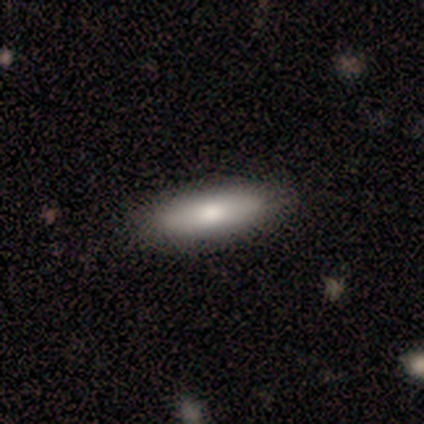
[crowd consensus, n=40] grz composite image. It shows a smooth galaxy with no disk features (80%) that is in between round and cigar-shaped (50%, tied with cigar-shaped). Merging: none (59%).